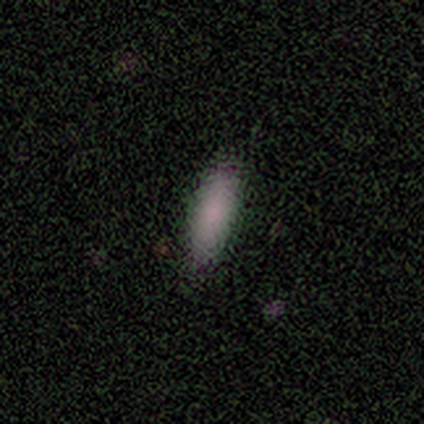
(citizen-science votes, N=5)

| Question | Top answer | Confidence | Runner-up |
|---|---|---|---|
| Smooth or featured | smooth | 100% | — |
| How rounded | cigar-shaped | 60% | in between (40%) |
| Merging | none | 60% | minor disturbance (20%) |